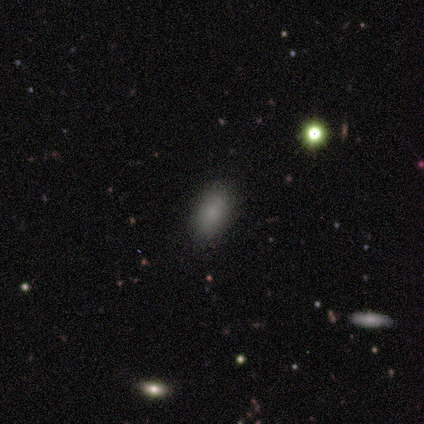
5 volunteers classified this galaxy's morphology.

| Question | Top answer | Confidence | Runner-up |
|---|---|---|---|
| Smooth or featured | smooth | 80% | star or artifact (20%) |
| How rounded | in between | 100% | — |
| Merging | none | 100% | — |